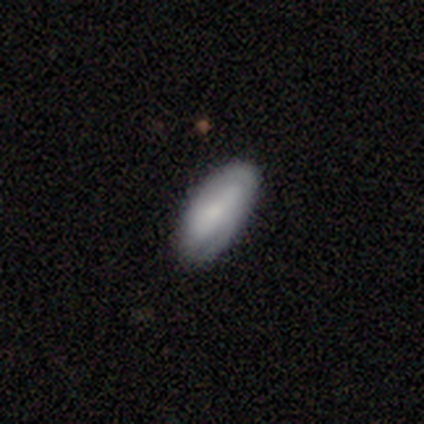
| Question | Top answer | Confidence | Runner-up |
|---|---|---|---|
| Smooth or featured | smooth | 62% | featured or disk (35%) |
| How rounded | in between | 88% | cigar-shaped (8%) |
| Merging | none | 59% | minor disturbance (15%) |